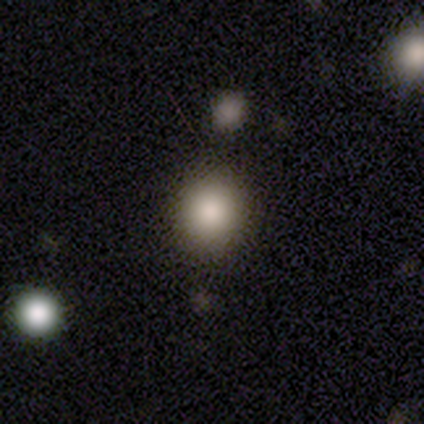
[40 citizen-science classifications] A smooth galaxy with no disk features (92%) that is round (78%).

Vote fractions:
- Smooth or featured? smooth: 92% / star or artifact: 8% / featured or disk: 0%
- How rounded? round: 78% / in between: 22% / cigar-shaped: 0%
- Merging? none: 65% / minor disturbance: 5% / merger: 3% / major disturbance: 0%